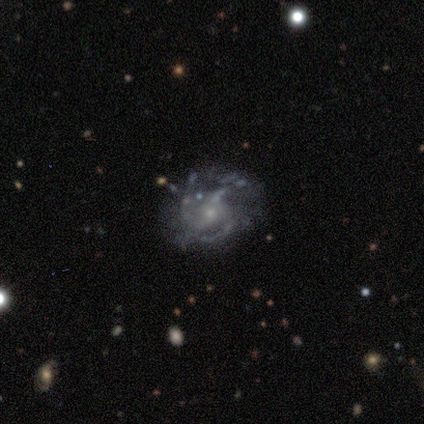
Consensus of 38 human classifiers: A featured or disk galaxy (87%) with no bar (70%), 3 (50%) medium (53%) spiral arms (91%) and a small central bulge (64%). Merging: none (46%).